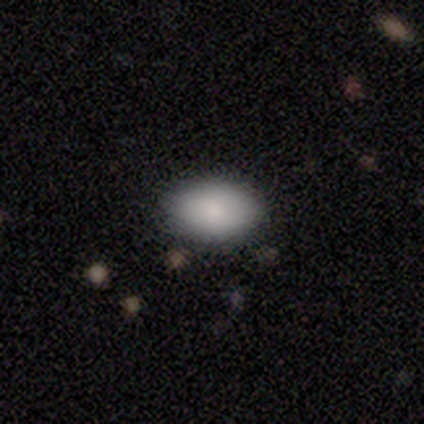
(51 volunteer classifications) Smooth or featured? smooth (88%)
How rounded? in between (82%)
Merging? none (83%)